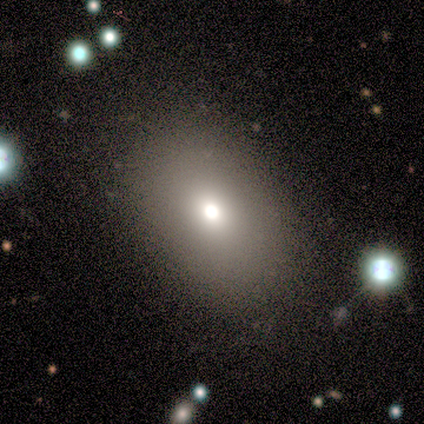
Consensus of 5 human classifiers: Overall: smooth (60%; featured or disk 40%). How rounded: in between (100%). Merging: none (40%, tied with minor disturbance).